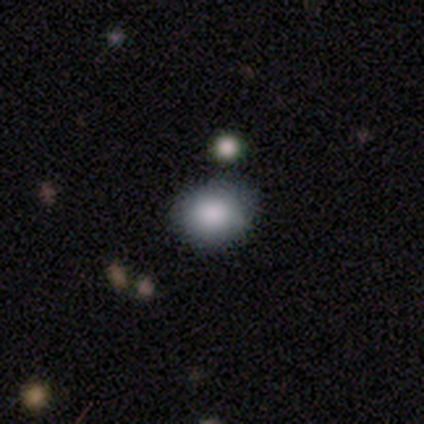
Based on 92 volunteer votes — smooth-or-featured: smooth: 85% | star or artifact: 11% | featured or disk: 4%
  how-rounded: round: 63% | in between: 37% | cigar-shaped: 0%
  merging: none: 77% | minor disturbance: 17% | major disturbance: 4% | merger: 2%